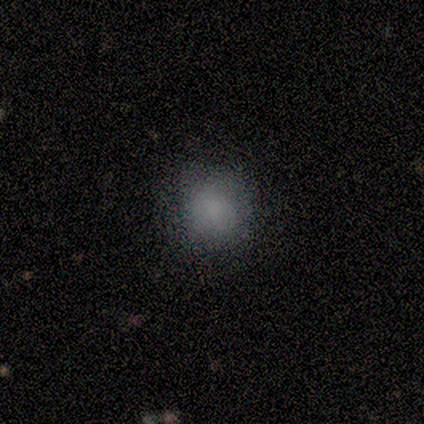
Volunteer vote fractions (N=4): This appears to be a smooth galaxy with no disk features (75%) that is round (100%). Merging: none (100%).